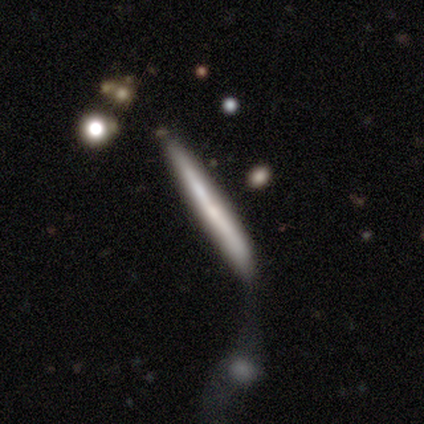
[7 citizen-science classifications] Overall: smooth (43%, tied with featured or disk). How rounded: cigar-shaped (100%). Merging: minor disturbance (83%).